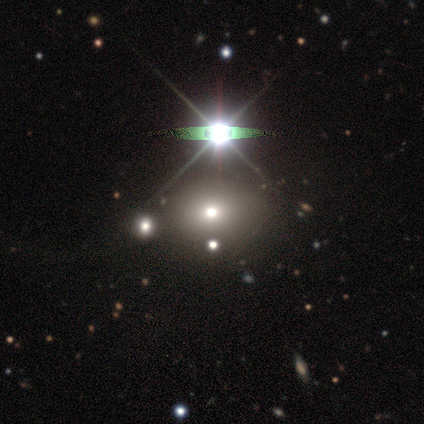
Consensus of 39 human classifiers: Smooth or featured? smooth (44%)
How rounded? round (53%)
Merging? none (88%)